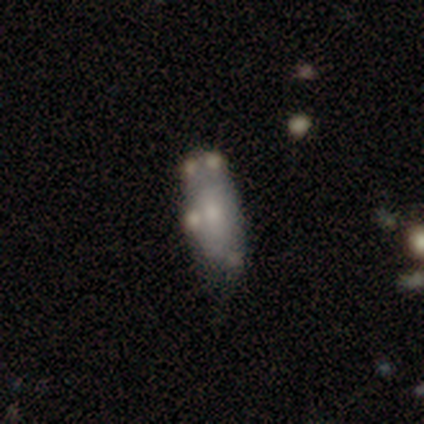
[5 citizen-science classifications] Smooth or featured: featured or disk — 60% (smooth — 40%)
Edge-on disk: no — 67% (yes — 33%)
Bar: no — 100%
Spiral arms: no — 100%
Bulge size: moderate — 50% (tied with small — 50%)
Merging: none — 60% (minor disturbance — 40%)